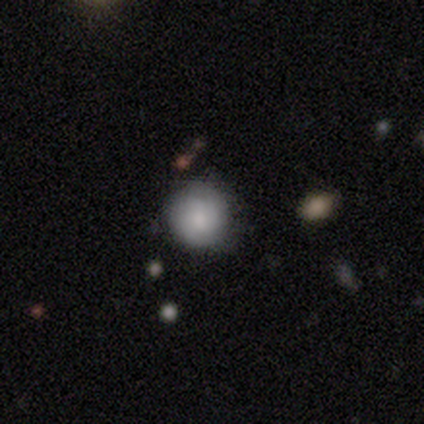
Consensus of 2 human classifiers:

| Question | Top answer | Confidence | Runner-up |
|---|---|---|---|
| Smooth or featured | smooth | 100% | — |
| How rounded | round | 100% | — |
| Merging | none | 50% | tied: minor disturbance (50%) |